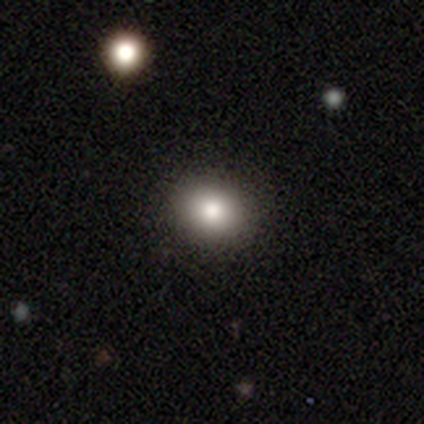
Smooth or featured? smooth (100%)
How rounded? round (100%)
Merging? none (100%)